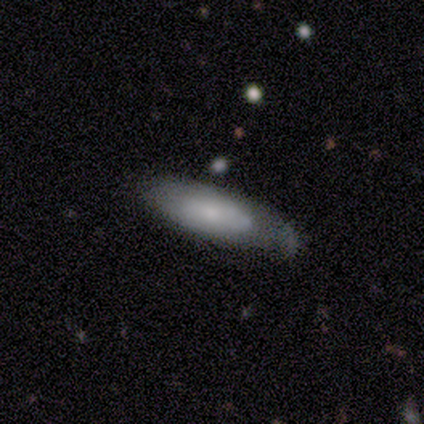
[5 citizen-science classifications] smooth_or_featured: smooth (p=0.80) [alt: featured or disk p=0.20]
how_rounded: in between (p=0.75) [alt: cigar-shaped p=0.25]
merging: none (p=0.40) [tied with: minor disturbance p=0.40]